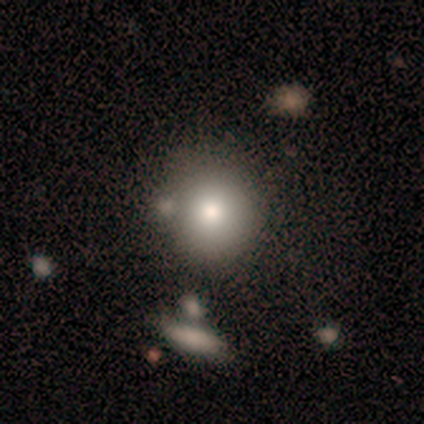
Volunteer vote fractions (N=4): Smooth or featured?
  - smooth: 100% *
  - featured or disk: 0%
  - star or artifact: 0%
How rounded?
  - round: 75% *
  - in between: 25%
  - cigar-shaped: 0%
Merging?
  - none: 50% * (tied)
  - minor disturbance: 50% * (tied)
  - major disturbance: 0%
  - merger: 0%